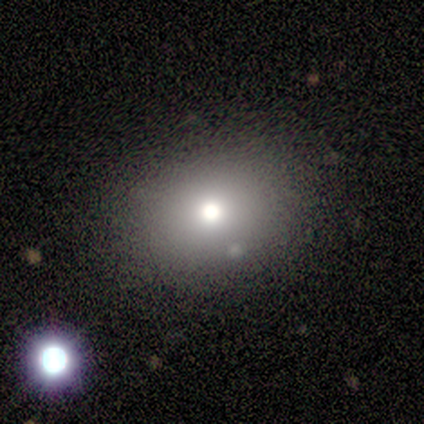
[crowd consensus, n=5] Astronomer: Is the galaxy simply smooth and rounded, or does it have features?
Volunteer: smooth — 80%.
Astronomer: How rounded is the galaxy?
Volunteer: round — 75%.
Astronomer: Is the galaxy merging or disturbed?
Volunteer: none — 100%.